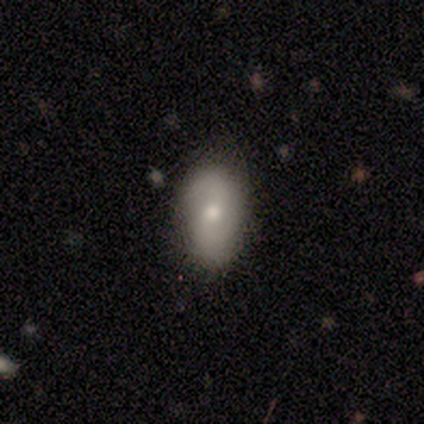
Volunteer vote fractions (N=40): Smooth or featured? smooth (62%)
How rounded? in between (72%)
Merging? none (78%)